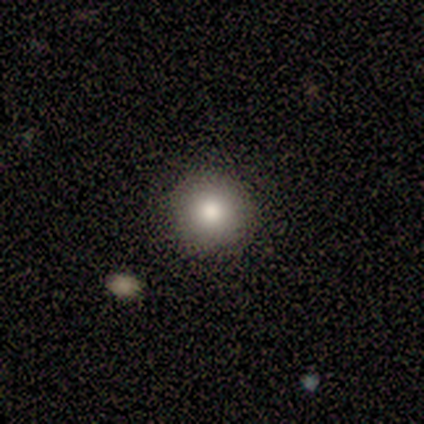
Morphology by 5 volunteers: Q: Smooth or featured?
A: smooth (80%); runner-up: star or artifact (20%)
Q: How rounded?
A: round (100%)
Q: Merging?
A: none (100%)